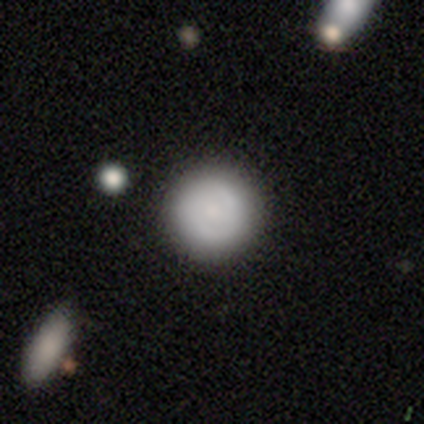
A smooth galaxy with no disk features (57%) that is round (100%). Merging: none (65%).